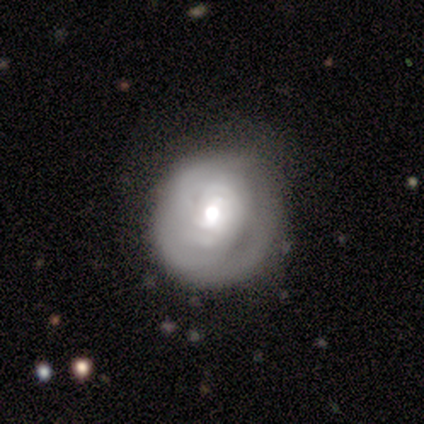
Smooth or featured?
  - featured or disk: 67% *
  - star or artifact: 33%
  - smooth: 0%
Edge-on disk?
  - no: 100% *
  - yes: 0%
Bar?
  - weak: 100% *
  - strong: 0%
  - no: 0%
Spiral arms?
  - yes: 100% *
  - no: 0%
Spiral winding?
  - tight: 100% *
  - medium: 0%
  - loose: 0%
Spiral arm count?
  - can't tell: 100% *
  - 1: 0%
  - 2: 0%
  - 3: 0%
  - 4: 0%
  - more than 4: 0%
Bulge size?
  - large: 50% * (tied)
  - moderate: 50% * (tied)
  - dominant: 0%
  - small: 0%
  - none: 0%
Merging?
  - none: 100% *
  - minor disturbance: 0%
  - major disturbance: 0%
  - merger: 0%